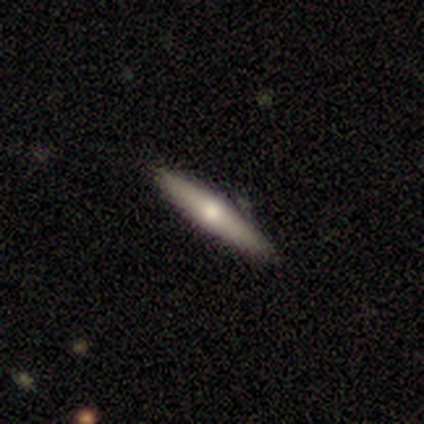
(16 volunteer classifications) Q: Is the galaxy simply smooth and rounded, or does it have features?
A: smooth — 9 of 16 (56%).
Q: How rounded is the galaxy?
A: cigar-shaped — 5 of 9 (56%).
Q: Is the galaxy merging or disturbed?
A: none — 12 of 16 (75%).